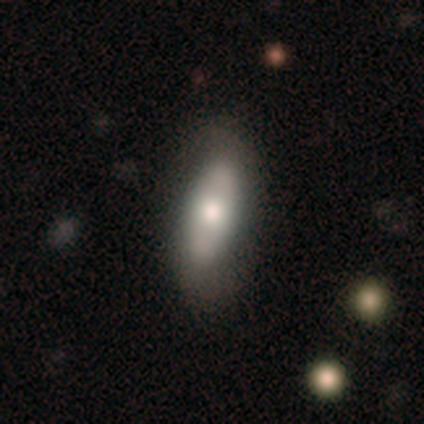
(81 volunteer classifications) This is likely a smooth galaxy (64%). How rounded: likely in between (77%). Merging: marginally none (42%).